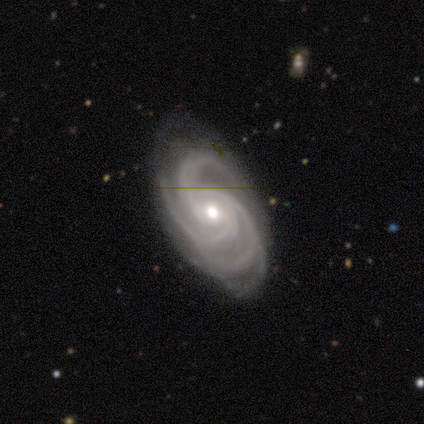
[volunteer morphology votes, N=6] This appears to be a featured or disk galaxy (100%) with a weak bar (50%), 3 (50%, tied with 4) tight (67%) spiral arms (100%) and a small central bulge (50%). Merging: none (50%, tied with minor disturbance).